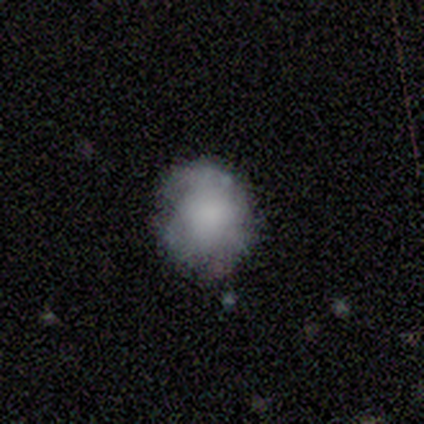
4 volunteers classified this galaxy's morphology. type=featured or disk (75%); edge-on=no (100%); bar=no (100%); spiral arms=no (100%); bulge=none (100%); merging=none (75%).